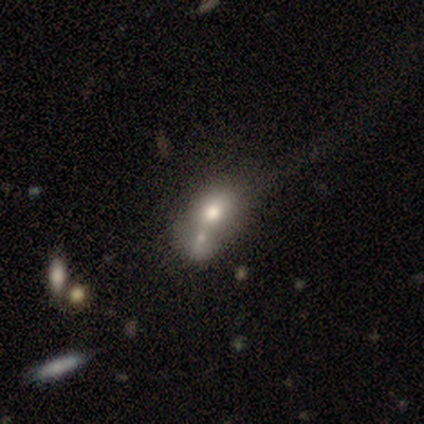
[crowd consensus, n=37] smooth-or-featured: smooth: 62% | featured or disk: 30% | star or artifact: 8%
  how-rounded: in between: 65% | round: 35% | cigar-shaped: 0%
  merging: merger: 50% | none: 18% | minor disturbance: 9% | major disturbance: 9%